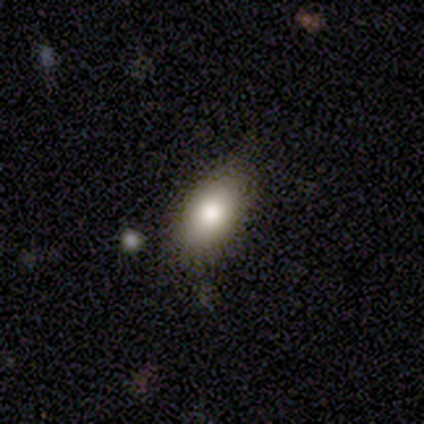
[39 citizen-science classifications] Q: Smooth or featured?
A: smooth (77%); runner-up: featured or disk (18%)
Q: How rounded?
A: in between (77%); runner-up: round (23%)
Q: Merging?
A: none (78%); runner-up: minor disturbance (16%)